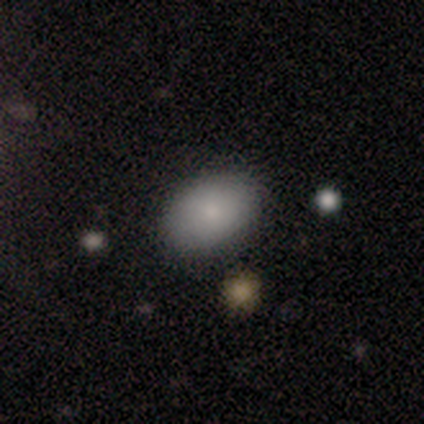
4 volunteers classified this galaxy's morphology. A smooth galaxy with no disk features (75%) that is in between round and cigar-shaped (67%). Merging: none (75%).